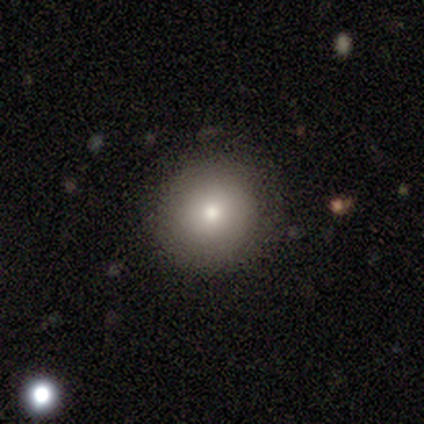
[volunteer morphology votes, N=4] type=smooth (75%); roundness=round (100%); merging=none (75%).